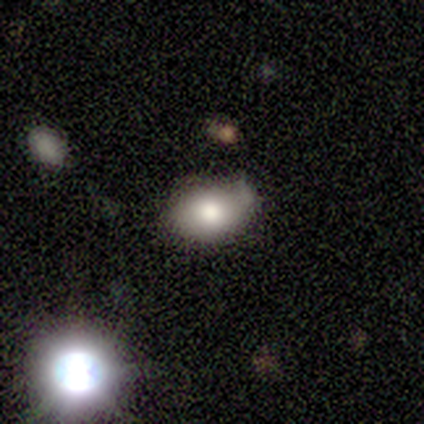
Smooth or featured?
  - smooth: 100% *
  - featured or disk: 0%
  - star or artifact: 0%
How rounded?
  - in between: 60% *
  - round: 40%
  - cigar-shaped: 0%
Merging?
  - minor disturbance: 60% *
  - major disturbance: 40%
  - none: 0%
  - merger: 0%